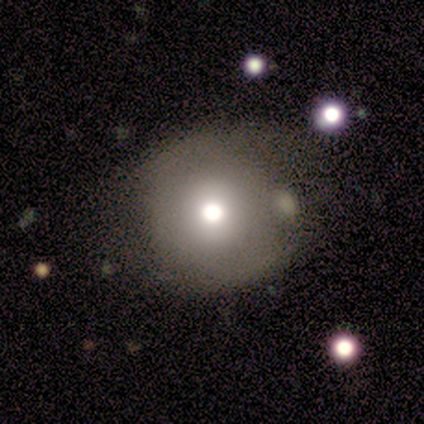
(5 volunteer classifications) This is likely a smooth galaxy (60%). How rounded: clearly round (100%). Merging: likely none (60%).